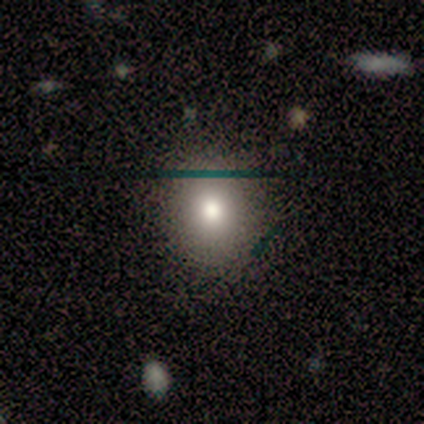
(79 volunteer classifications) Overall: smooth (81%). How rounded: round (61%; in between 39%). Merging: none (44%; minor disturbance 6%).